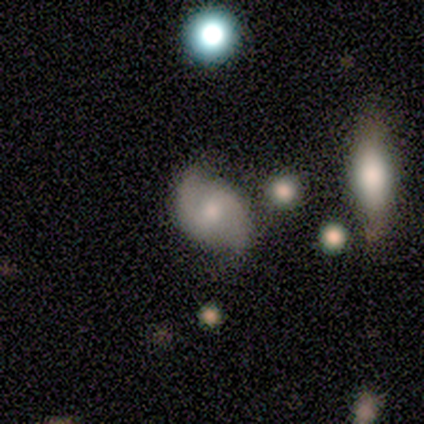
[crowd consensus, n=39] A featured or disk galaxy (79%) with no bar (48%), 2 (100%) medium (47%) spiral arms (97%) and a moderate central bulge (45%).

Vote fractions:
- Smooth or featured? featured or disk: 79% / smooth: 15% / star or artifact: 5%
- Edge-on disk? no: 100% / yes: 0%
- Bar? no: 48% / weak: 45% / strong: 6%
- Spiral arms? yes: 97% / no: 3%
- Spiral winding? medium: 47% / loose: 30% / tight: 23%
- Spiral arm count? 2: 100% / 1: 0% / 3: 0% / 4: 0% / more than 4: 0% / can't tell: 0%
- Bulge size? moderate: 45% / small: 35% / large: 13% / none: 6% / dominant: 0%
- Merging? none: 59% / minor disturbance: 8% / merger: 3% / major disturbance: 0%